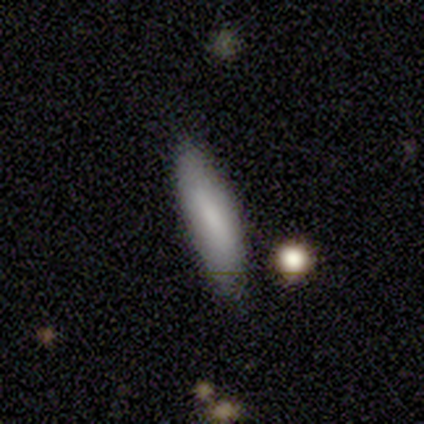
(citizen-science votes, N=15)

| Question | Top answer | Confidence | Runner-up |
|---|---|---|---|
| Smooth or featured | smooth | 73% | featured or disk (13%) |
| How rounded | in between | 55% | cigar-shaped (45%) |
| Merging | none | 85% | minor disturbance (15%) |